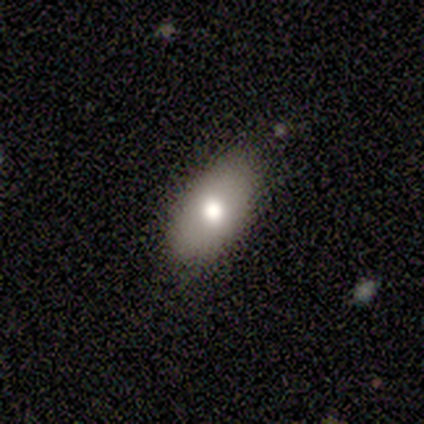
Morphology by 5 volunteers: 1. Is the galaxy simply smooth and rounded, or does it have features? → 80% smooth, 20% featured or disk, 0% star or artifact.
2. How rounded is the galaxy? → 100% in between, 0% round, 0% cigar-shaped.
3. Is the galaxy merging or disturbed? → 100% none, 0% minor disturbance, 0% major disturbance, 0% merger.